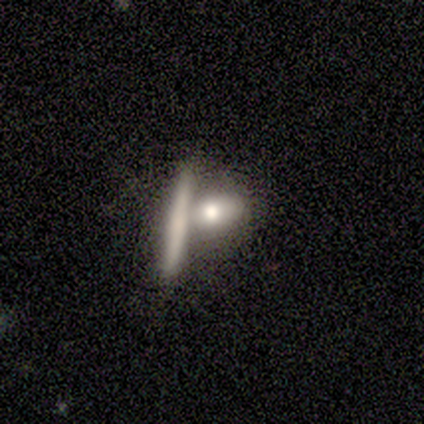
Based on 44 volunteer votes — This is likely a smooth galaxy (64%). How rounded: possibly in between (46%). Merging: possibly merger (51%).